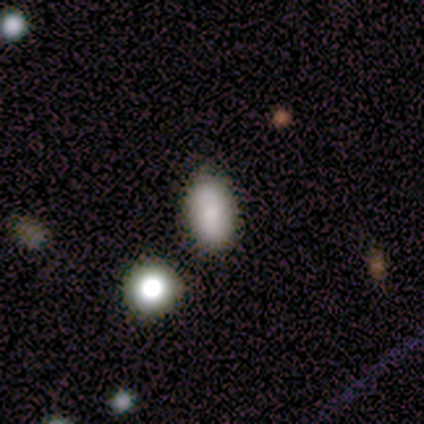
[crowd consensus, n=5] This appears to be a smooth galaxy with no disk features (80%) that is in between round and cigar-shaped (100%). Merging: none (75%).